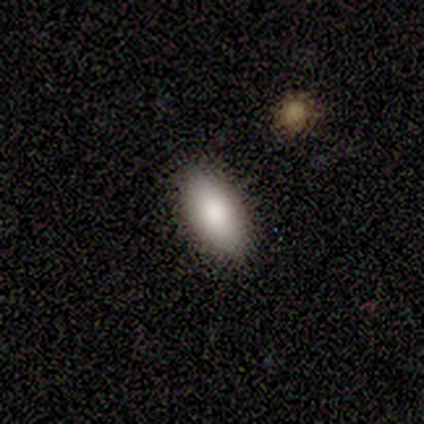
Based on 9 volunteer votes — smooth 56%, featured or disk 33%, star or artifact 11%. Down the decision tree: how rounded — in between (100%); merging — none (100%).